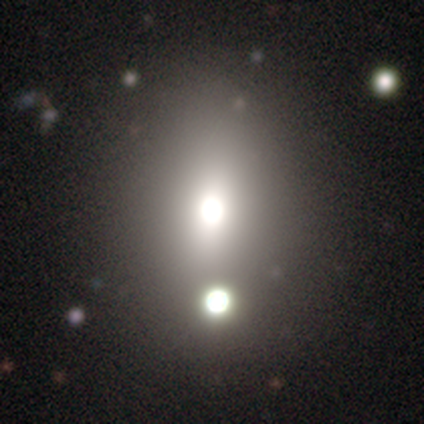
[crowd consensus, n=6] A smooth galaxy with no disk features (50%, tied with star or artifact) that is in between round and cigar-shaped (67%). Merging: none (100%).